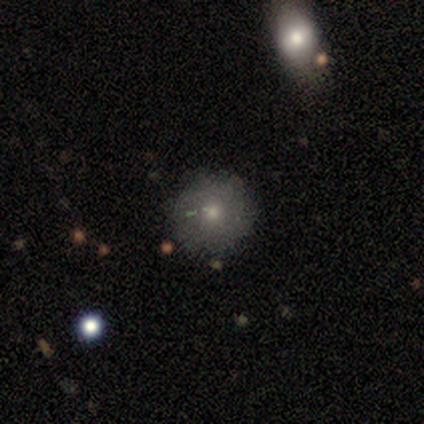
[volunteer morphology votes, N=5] This appears to be a smooth galaxy with no disk features (80%) that is round (100%). Merging: none (100%).